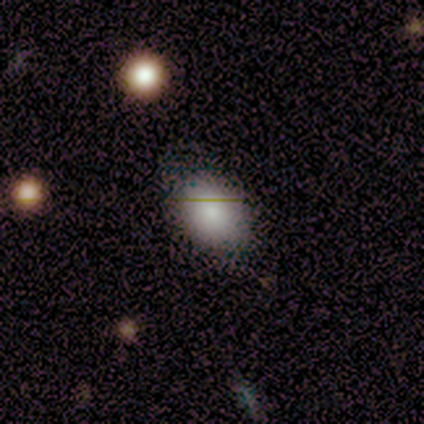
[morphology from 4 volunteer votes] Volunteers were most divided on "merging" (2-way tie): none: 50%, minor disturbance: 50%, major disturbance: 0%, merger: 0%. More confident: smooth or featured — smooth (100%); how rounded — in between (75%).